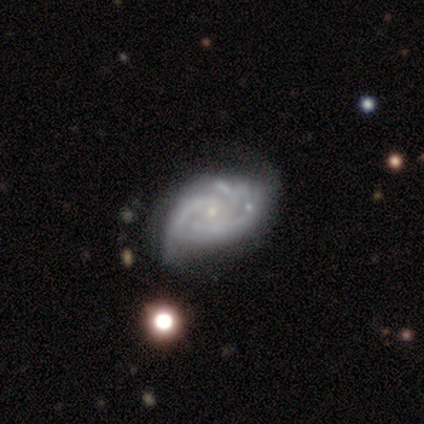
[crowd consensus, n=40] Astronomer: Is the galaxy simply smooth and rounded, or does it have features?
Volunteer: featured or disk — 92%.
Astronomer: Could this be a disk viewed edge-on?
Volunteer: no — 100%.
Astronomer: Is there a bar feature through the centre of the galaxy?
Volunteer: no — 73%.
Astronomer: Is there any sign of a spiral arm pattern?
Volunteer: yes — 92%.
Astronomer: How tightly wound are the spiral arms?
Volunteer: medium — 47% (runner-up: tight, 35%).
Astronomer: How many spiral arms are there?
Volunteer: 3 — 38% (runner-up: 2, 32%).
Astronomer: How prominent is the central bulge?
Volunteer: small — 84%.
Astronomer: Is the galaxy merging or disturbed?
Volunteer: minor disturbance — 29% (runner-up: none, 24%).